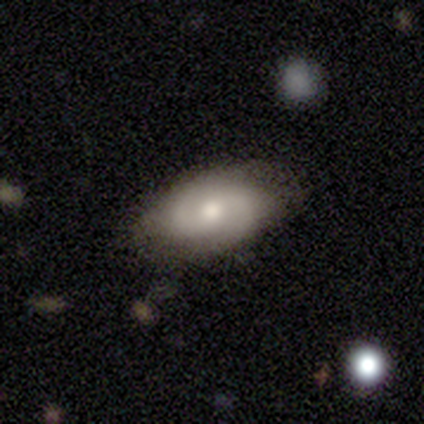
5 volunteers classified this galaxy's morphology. smooth-or-featured: featured or disk: 60% | smooth: 40% | star or artifact: 0%
  disk-edge-on: no: 67% | yes: 33%
    bar: no: 100% | strong: 0% | weak: 0%
    has-spiral-arms: yes: 100% | no: 0%
      spiral-winding: tight: 50% (tied) | loose: 50% (tied) | medium: 0%
      spiral-arm-count: 2: 50% (tied) | 4: 50% (tied) | 1: 0% | 3: 0% | more than 4: 0% | can't tell: 0%
    bulge-size: large: 50% (tied) | moderate: 50% (tied) | dominant: 0% | small: 0% | none: 0%
  merging: none: 40% (tied) | minor disturbance: 40% (tied) | merger: 20% | major disturbance: 0%